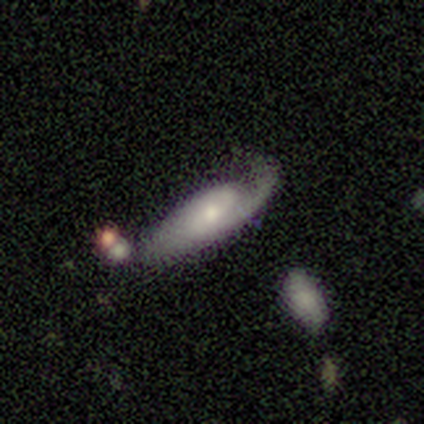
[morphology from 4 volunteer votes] Volunteers were most divided on "merging" (2-way tie): none: 50%, minor disturbance: 50%, major disturbance: 0%, merger: 0%. More confident: smooth or featured — featured or disk (100%); bar — weak (100%); spiral arms — yes (100%); spiral arm count — 2 (100%); bulge size — small (100%); edge-on disk — no (75%); spiral winding — loose (67%).